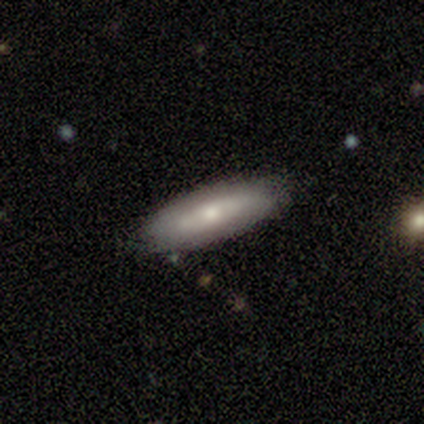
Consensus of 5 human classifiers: smooth 60%, featured or disk 40%, star or artifact 0%. Down the decision tree: how rounded — in between (67%); merging — none (100%).